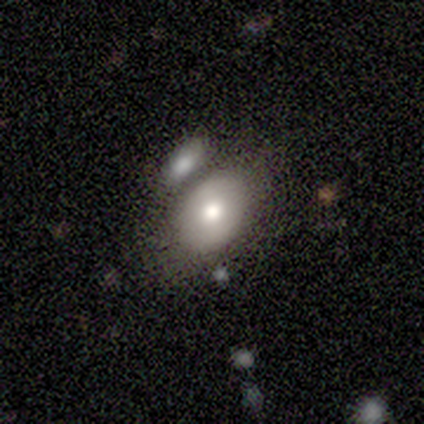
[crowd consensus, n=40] Morphology: type=smooth (65%); roundness=in between (92%); merging=none (44%).